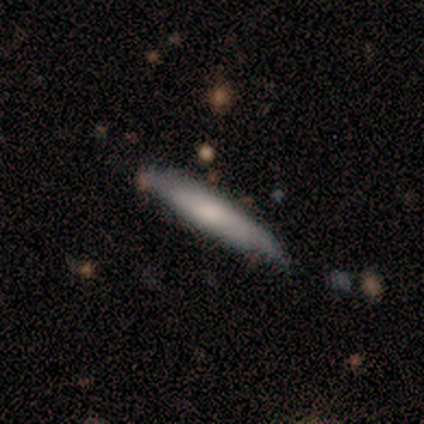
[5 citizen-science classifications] smooth-or-featured: featured or disk: 80% | smooth: 20% | star or artifact: 0%
  disk-edge-on: yes: 75% | no: 25%
    edge-on-bulge: rounded: 100% | boxy: 0% | none: 0%
  merging: none: 100% | minor disturbance: 0% | major disturbance: 0% | merger: 0%